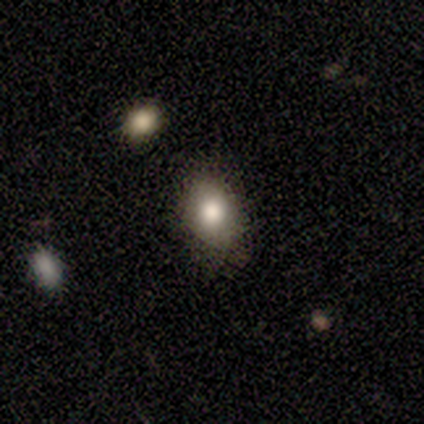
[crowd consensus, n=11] Smooth or featured?
  - smooth: 91% *
  - star or artifact: 9%
  - featured or disk: 0%
How rounded?
  - round: 50% * (tied)
  - in between: 50% * (tied)
  - cigar-shaped: 0%
Merging?
  - none: 80% *
  - minor disturbance: 20%
  - major disturbance: 0%
  - merger: 0%